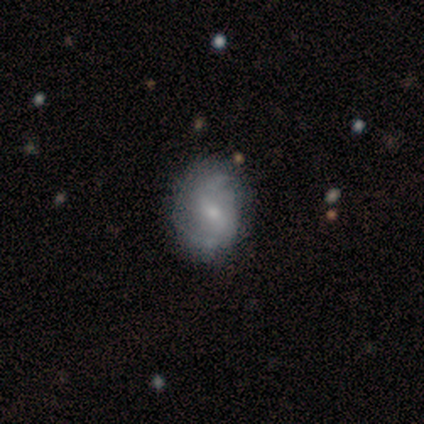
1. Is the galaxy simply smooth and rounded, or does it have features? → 60% featured or disk, 40% smooth, 0% star or artifact.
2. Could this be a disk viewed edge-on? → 100% no, 0% yes.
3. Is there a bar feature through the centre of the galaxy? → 67% weak, 33% strong, 0% no.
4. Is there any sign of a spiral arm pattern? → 100% yes, 0% no.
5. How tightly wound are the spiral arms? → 67% loose, 33% medium, 0% tight.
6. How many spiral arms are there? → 100% 2, 0% 1, 0% 3, 0% 4, 0% more than 4, 0% can't tell.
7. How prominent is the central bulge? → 67% small, 33% moderate, 0% dominant, 0% large, 0% none.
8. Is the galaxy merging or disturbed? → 80% none, 20% minor disturbance, 0% major disturbance, 0% merger.